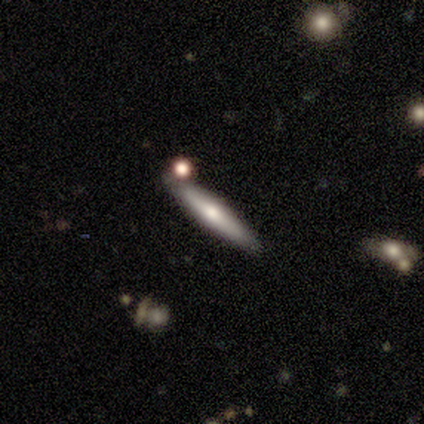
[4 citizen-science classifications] Smooth or featured: smooth — 50% (featured or disk — 25%)
How rounded: cigar-shaped — 100%
Merging: none — 100%